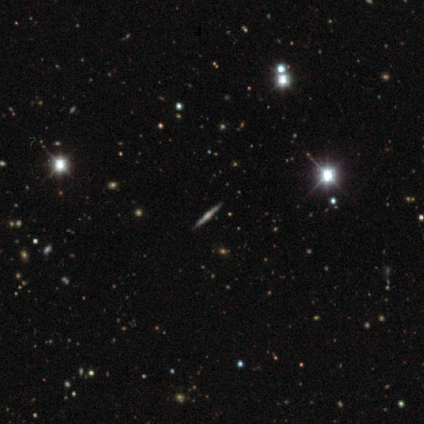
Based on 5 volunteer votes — This is clearly a featured or disk galaxy (100%). It is clearly viewed edge-on (100%). Edge-on bulge: clearly rounded (100%). Merging: clearly none (100%).